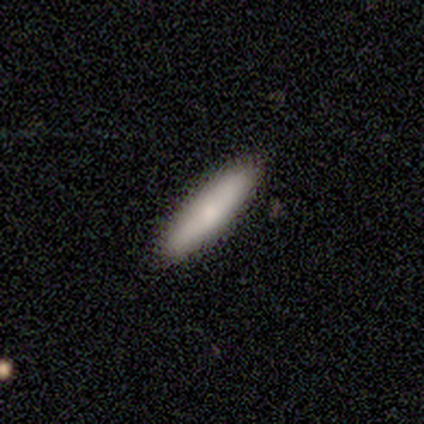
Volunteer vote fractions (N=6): Smooth or featured? 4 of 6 (67%) said smooth. How rounded? 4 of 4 (100%) said cigar-shaped. Merging? 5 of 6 (83%) said none.